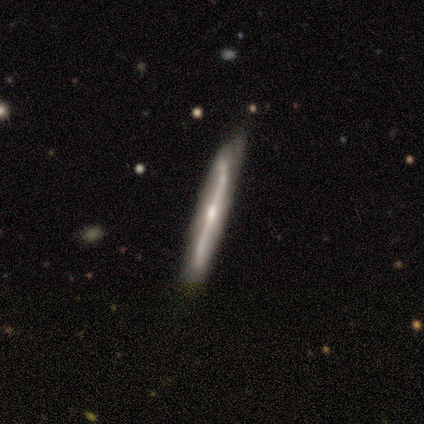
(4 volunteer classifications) Smooth or featured? 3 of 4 (75%) said featured or disk. Edge-on disk? 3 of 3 (100%) said yes. Edge-on bulge? 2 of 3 (67%) said rounded. Merging? 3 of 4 (75%) said none.